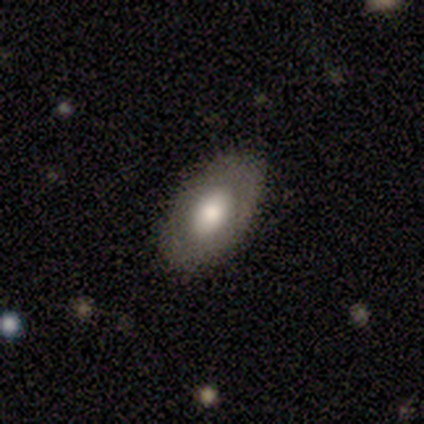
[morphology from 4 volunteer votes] Smooth or featured? smooth (50%, tied with featured or disk)
How rounded? in between (100%)
Merging? none (100%)